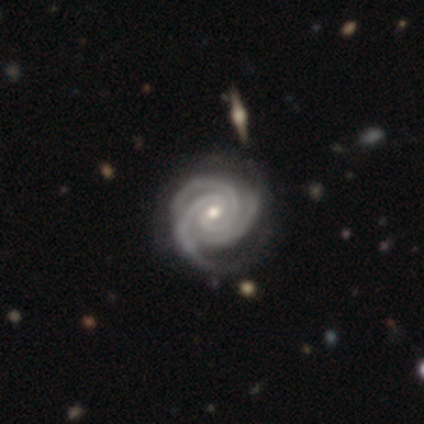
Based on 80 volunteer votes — This is clearly a featured or disk galaxy (100%). It is clearly not viewed edge-on (99%). Bar: possibly no (52%). Spiral arm pattern: clearly yes (100%). Spiral arm count: likely 3 (80%). Spiral winding: clearly tight (90%). Central bulge: possibly moderate (47%, tied with small). Merging: marginally none (42%).